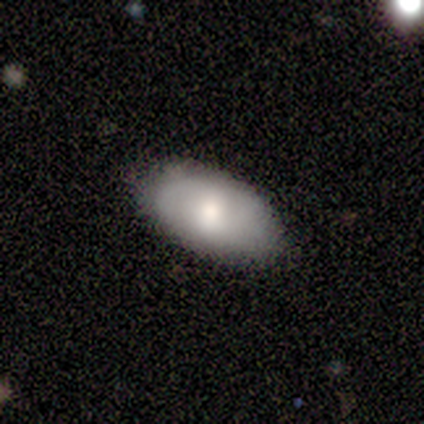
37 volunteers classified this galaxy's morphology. Smooth or featured: smooth — 65% (featured or disk — 32%)
How rounded: in between — 92% (cigar-shaped — 8%)
Merging: none — 75% (minor disturbance — 22%)